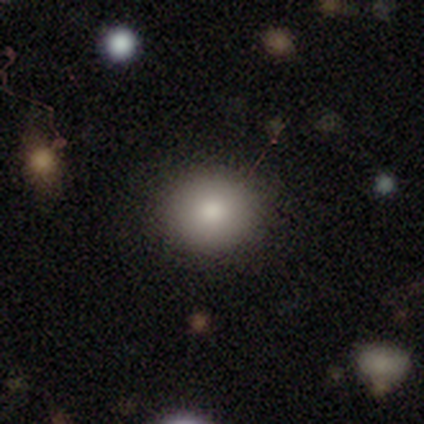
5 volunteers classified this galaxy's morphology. Volunteers were most divided on "how rounded" (2-way tie): round: 50%, in between: 50%, cigar-shaped: 0%. More confident: smooth or featured — smooth (80%); merging — none (60%).